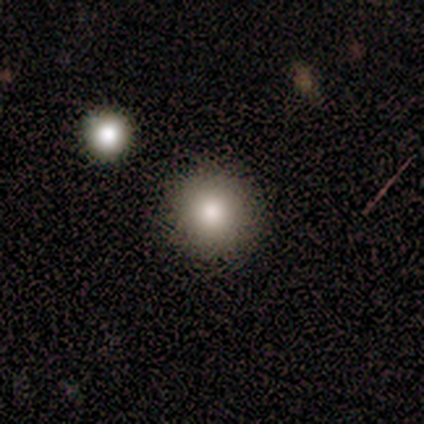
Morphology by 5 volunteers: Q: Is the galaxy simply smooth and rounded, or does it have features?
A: smooth — 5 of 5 (100%).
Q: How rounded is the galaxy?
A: round — 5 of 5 (100%).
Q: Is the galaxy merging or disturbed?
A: none — 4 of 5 (80%).